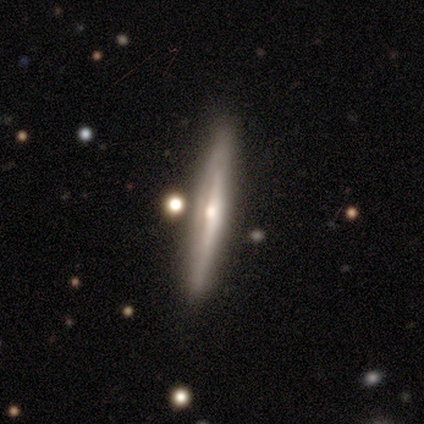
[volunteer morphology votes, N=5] type=featured or disk (80%); edge-on=yes (75%); edge-on bulge=rounded (100%); merging=none (100%).